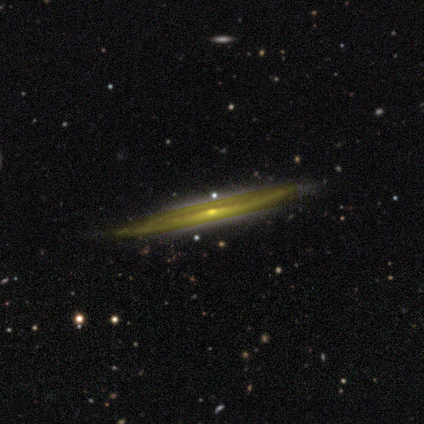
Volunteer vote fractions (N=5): A featured or disk galaxy (80%) viewed edge-on (100%) with a rounded central bulge (50%).

Vote fractions:
- Smooth or featured? featured or disk: 80% / smooth: 20% / star or artifact: 0%
- Edge-on disk? yes: 100% / no: 0%
- Edge-on bulge? rounded: 50% / boxy: 25% / none: 25%
- Merging? none: 60% / minor disturbance: 40% / major disturbance: 0% / merger: 0%